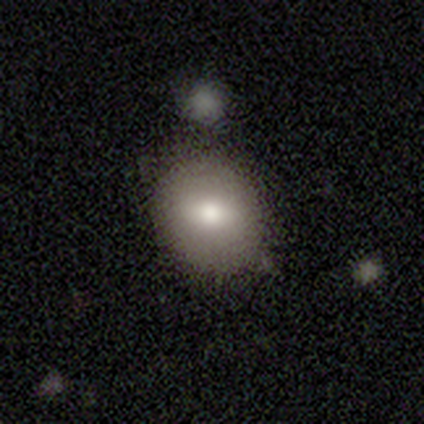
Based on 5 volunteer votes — Volunteers were most divided on "how rounded": round: 60%, in between: 40%, cigar-shaped: 0%. More confident: smooth or featured — smooth (100%); merging — none (80%).